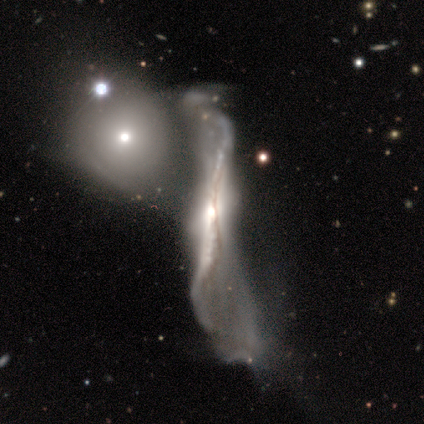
Morphology: type=featured or disk (84%); edge-on=yes (52%); edge-on bulge=rounded (72%); merging=merger (66%).